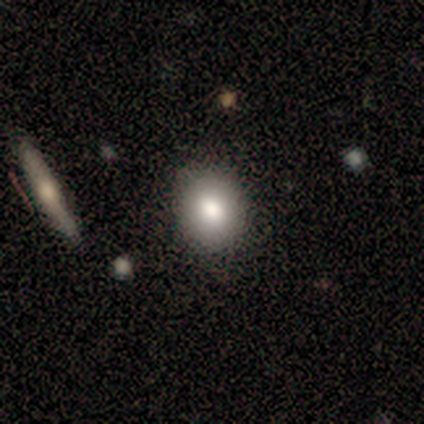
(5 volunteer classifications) This appears to be a smooth galaxy with no disk features (80%) that is round (100%). Merging: none (100%).